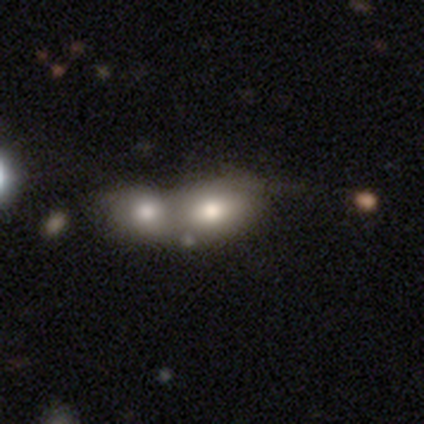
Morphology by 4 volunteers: Overall: smooth (75%). How rounded: in between (67%; cigar-shaped 33%). Merging: merger (100%).